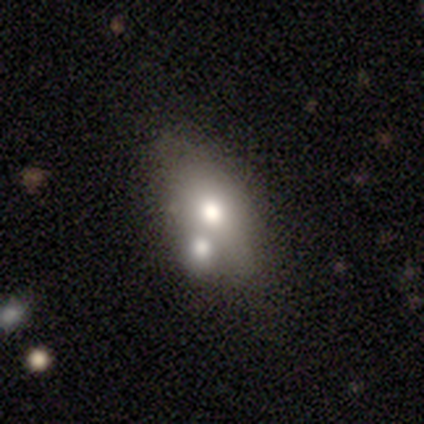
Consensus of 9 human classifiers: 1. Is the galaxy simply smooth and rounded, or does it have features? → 56% smooth, 22% featured or disk, 22% star or artifact.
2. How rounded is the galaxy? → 80% in between, 20% cigar-shaped, 0% round.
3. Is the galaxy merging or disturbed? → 43% none (tied), 43% merger (tied), 14% minor disturbance, 0% major disturbance.